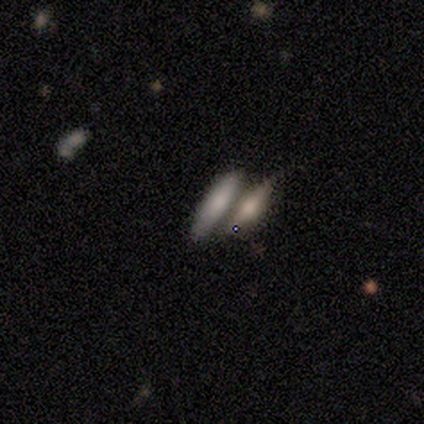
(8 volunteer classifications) smooth_or_featured: smooth (p=0.62) [alt: star or artifact p=0.25]
how_rounded: cigar-shaped (p=0.60) [alt: in between p=0.40]
merging: merger (p=1.00)